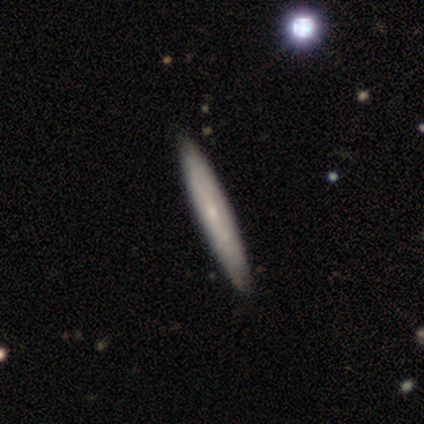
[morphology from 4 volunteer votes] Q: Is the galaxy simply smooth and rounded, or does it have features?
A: smooth — 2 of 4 (50%, tied with featured or disk).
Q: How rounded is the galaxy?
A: cigar-shaped — 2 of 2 (100%).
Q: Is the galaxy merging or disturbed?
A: none — 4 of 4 (100%).